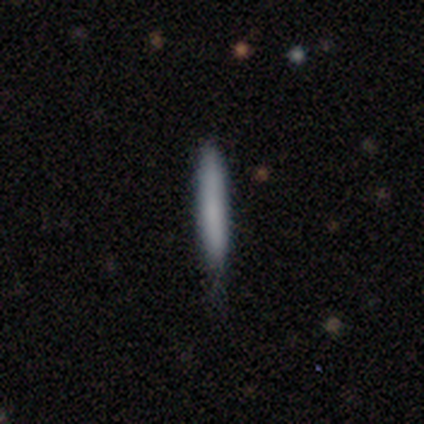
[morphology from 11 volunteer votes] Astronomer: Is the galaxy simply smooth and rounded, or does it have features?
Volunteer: smooth — 73%.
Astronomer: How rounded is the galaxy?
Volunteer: cigar-shaped — 100%.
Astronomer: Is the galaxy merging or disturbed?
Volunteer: none — 89%.